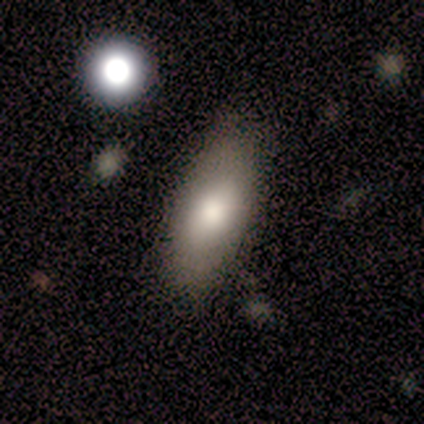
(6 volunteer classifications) Volunteers were most divided on "smooth or featured": smooth: 67%, featured or disk: 33%, star or artifact: 0%. More confident: how rounded — in between (100%); merging — none (83%).